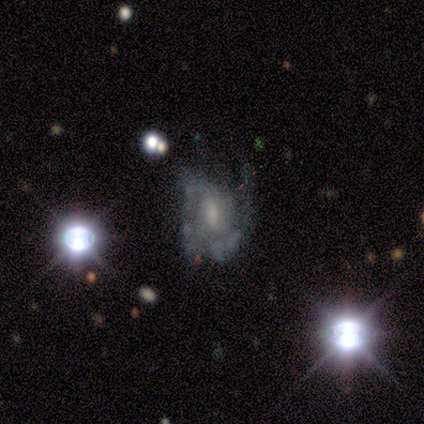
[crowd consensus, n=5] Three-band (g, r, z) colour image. It shows a featured or disk galaxy (80%) with a weak bar (50%, tied with no), 2 (50%) loose (50%) spiral arms (100%) and a large central bulge (25%, tied with moderate, small and none). Merging: none (50%).